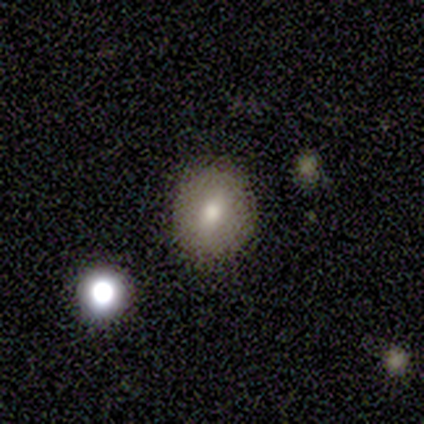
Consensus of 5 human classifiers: Smooth or featured? 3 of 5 (60%) said smooth. How rounded? 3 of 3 (100%) said round. Merging? 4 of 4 (100%) said none.